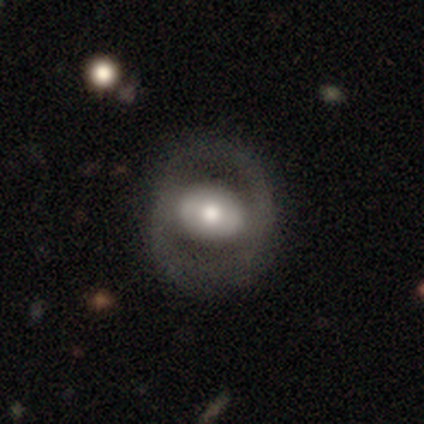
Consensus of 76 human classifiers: Q: Smooth or featured?
A: featured or disk (72%); runner-up: smooth (28%)
Q: Edge-on disk?
A: no (98%); runner-up: yes (2%)
Q: Bar?
A: no (46%); runner-up: strong (35%)
Q: Spiral arms?
A: no (72%); runner-up: yes (28%)
Q: Bulge size?
A: moderate (56%); runner-up: large (28%)
Q: Merging?
A: none (45%); runner-up: minor disturbance (5%)